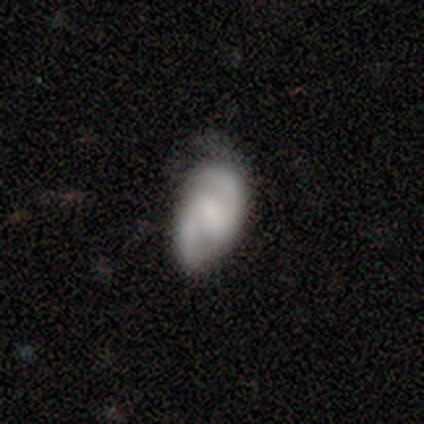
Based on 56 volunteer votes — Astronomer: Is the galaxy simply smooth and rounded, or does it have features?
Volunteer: featured or disk — 79%.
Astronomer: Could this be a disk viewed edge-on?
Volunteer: no — 98%.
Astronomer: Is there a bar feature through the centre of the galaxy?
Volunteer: weak — 44% (runner-up: no, 40%).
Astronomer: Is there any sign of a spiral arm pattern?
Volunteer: yes — 95%.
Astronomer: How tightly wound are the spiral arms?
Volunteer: medium — 49% (runner-up: tight, 29%).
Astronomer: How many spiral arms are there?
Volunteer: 2 — 90%.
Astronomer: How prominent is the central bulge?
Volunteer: small — 42% (runner-up: none, 26%).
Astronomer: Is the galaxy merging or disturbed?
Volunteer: none — 55% (runner-up: minor disturbance, 38%).